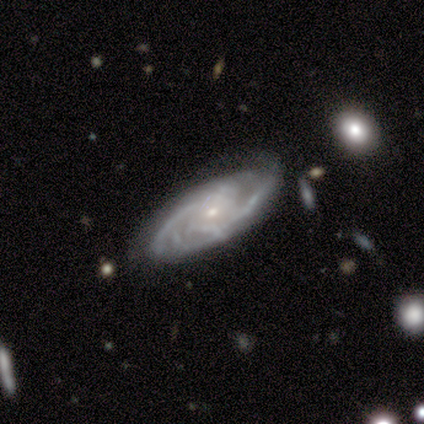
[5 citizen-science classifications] Smooth or featured? featured or disk (100%)
Edge-on disk? no (100%)
Bar? weak (60%)
Spiral arms? yes (100%)
Spiral winding? tight (40%, tied with loose)
Spiral arm count? can't tell (60%)
Bulge size? moderate (60%)
Merging? none (60%)